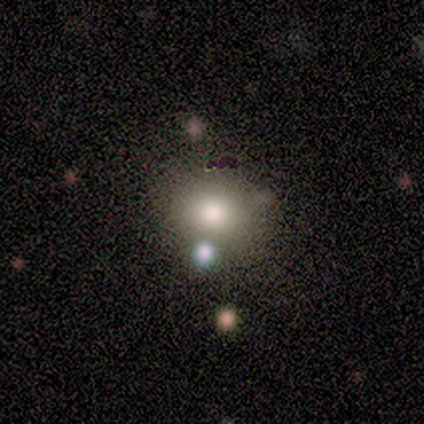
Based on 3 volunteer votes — A smooth galaxy with no disk features (67%) that is round (100%). Merging: none (100%).